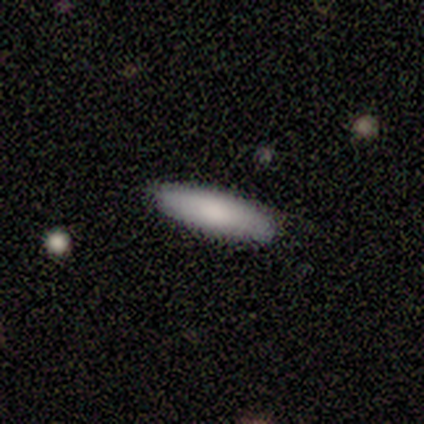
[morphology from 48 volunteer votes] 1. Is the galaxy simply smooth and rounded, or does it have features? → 83% smooth, 15% featured or disk, 2% star or artifact.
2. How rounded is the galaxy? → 50% cigar-shaped, 48% in between, 2% round.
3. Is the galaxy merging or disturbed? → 91% none, 6% minor disturbance, 2% major disturbance, 0% merger.